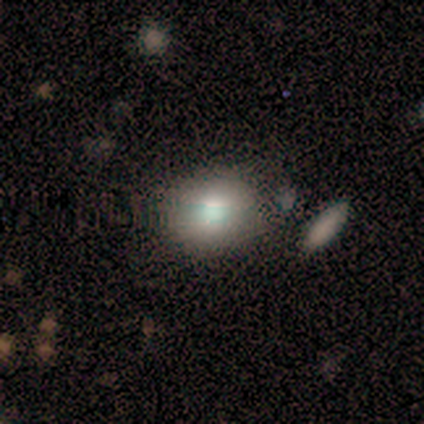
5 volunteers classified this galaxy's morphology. Smooth or featured? smooth (80%)
How rounded? round (50%, tied with in between)
Merging? none (100%)